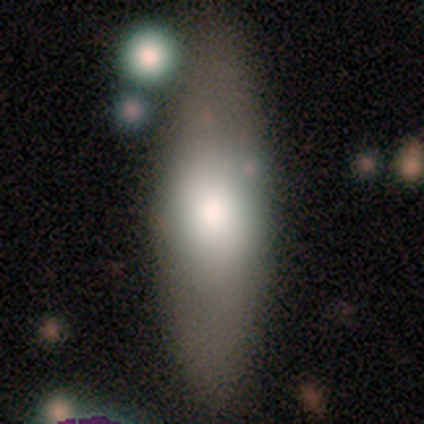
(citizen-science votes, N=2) Volunteers were most divided on "smooth or featured" (2-way tie): smooth: 50%, featured or disk: 50%, star or artifact: 0%. More confident: how rounded — in between (100%); merging — none (100%).